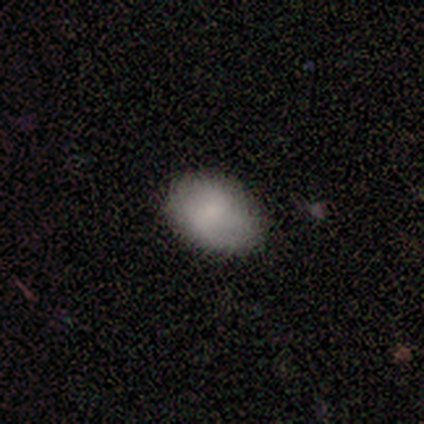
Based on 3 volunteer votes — smooth-or-featured: smooth: 67% | featured or disk: 33% | star or artifact: 0%
  how-rounded: round: 50% (tied) | in between: 50% (tied) | cigar-shaped: 0%
  merging: none: 100% | minor disturbance: 0% | major disturbance: 0% | merger: 0%